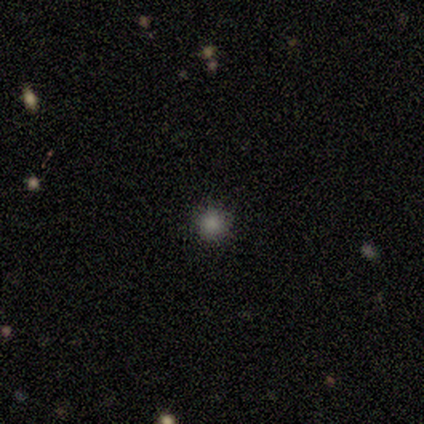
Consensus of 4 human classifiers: Smooth or featured? 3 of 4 (75%) said smooth. How rounded? 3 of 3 (100%) said round. Merging? 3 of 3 (100%) said none.